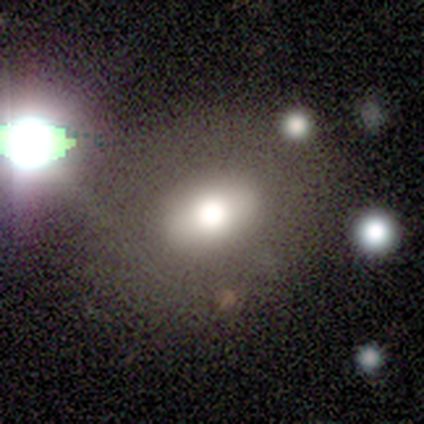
Smooth or featured? smooth (100%)
How rounded? in between (67%)
Merging? none (67%)